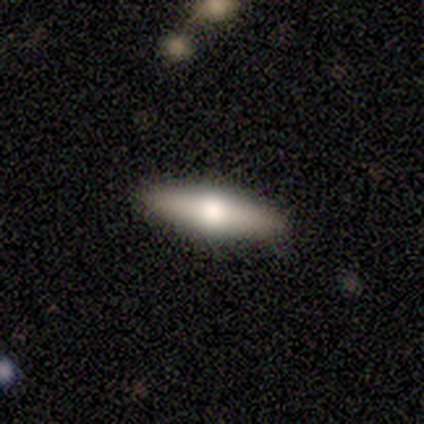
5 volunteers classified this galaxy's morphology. Smooth or featured? featured or disk (60%)
Edge-on disk? yes (67%)
Edge-on bulge? rounded (100%)
Merging? none (100%)